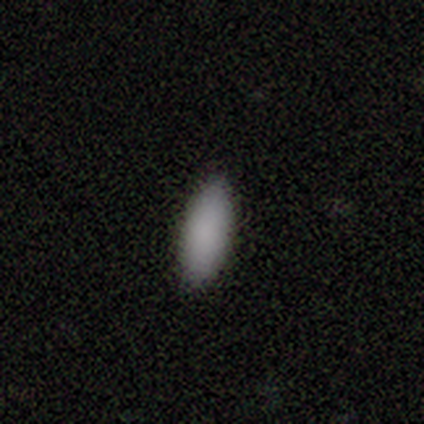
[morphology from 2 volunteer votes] This appears to be a smooth galaxy with no disk features (100%) that is in between round and cigar-shaped (100%). Merging: none (100%).